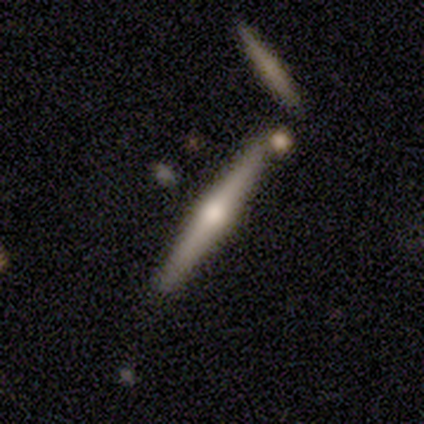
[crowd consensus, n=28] This appears to be a featured or disk galaxy (82%) viewed edge-on (100%) with a rounded central bulge (96%). Merging: none (77%).